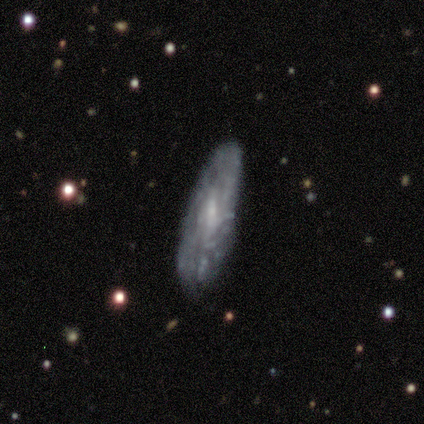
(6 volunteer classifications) Smooth or featured? featured or disk (83%)
Edge-on disk? no (60%)
Bar? weak (67%)
Spiral arms? no (67%)
Bulge size? moderate (33%, tied with small and none)
Merging? none (100%)